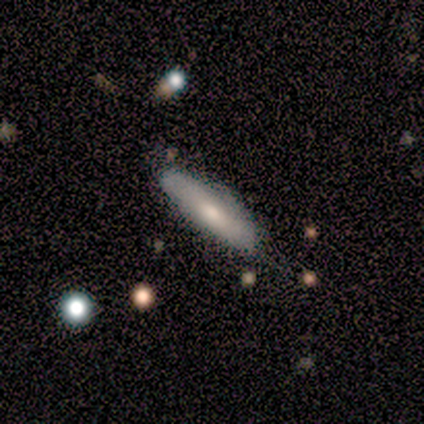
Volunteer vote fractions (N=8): Overall: smooth (75%). How rounded: cigar-shaped (67%; in between 33%). Merging: none (62%; minor disturbance 25%).